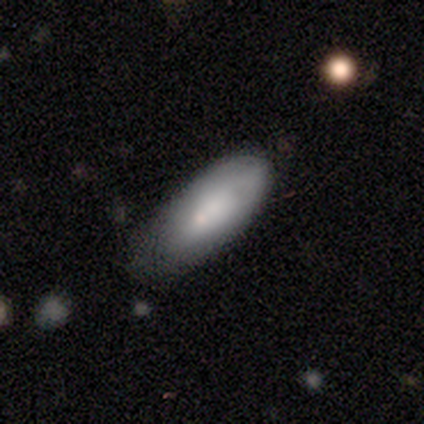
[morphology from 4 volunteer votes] This is clearly a smooth galaxy (100%). How rounded: possibly in between (50%, tied with cigar-shaped). Merging: likely none (75%).